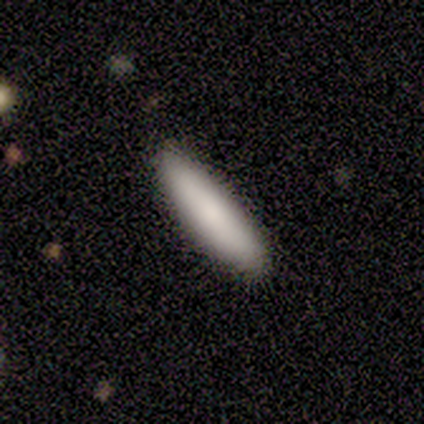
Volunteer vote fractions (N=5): Morphology: type=smooth (60%); roundness=cigar-shaped (67%); merging=none (50%).